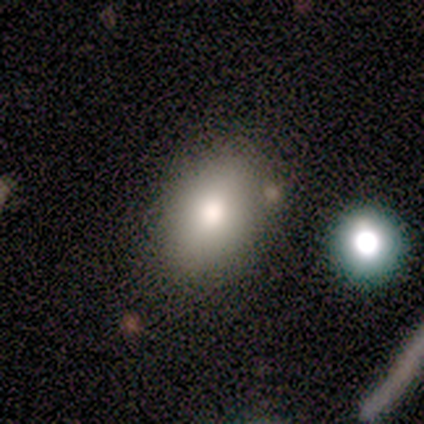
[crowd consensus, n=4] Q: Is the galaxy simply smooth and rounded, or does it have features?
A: smooth — 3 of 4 (75%).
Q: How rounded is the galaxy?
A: in between — 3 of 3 (100%).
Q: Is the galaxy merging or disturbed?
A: none — 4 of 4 (100%).